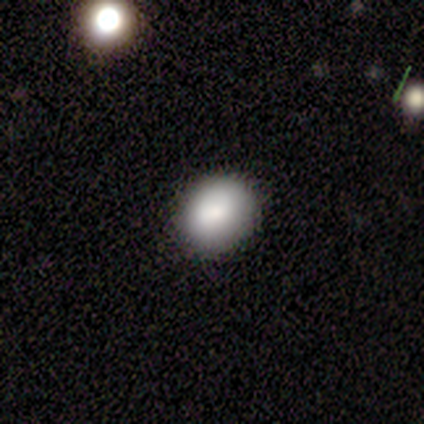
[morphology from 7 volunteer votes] Overall: smooth (57%; featured or disk 43%). How rounded: in between (75%). Merging: none (71%).